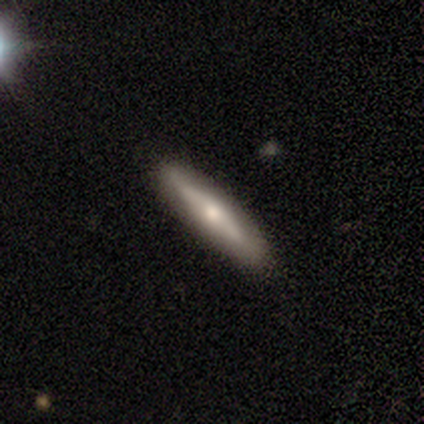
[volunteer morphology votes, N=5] Smooth or featured: featured or disk — 60% (smooth — 40%)
Edge-on disk: yes — 67% (no — 33%)
Edge-on bulge: none — 50% (tied with rounded — 50%)
Merging: none — 80% (minor disturbance — 20%)